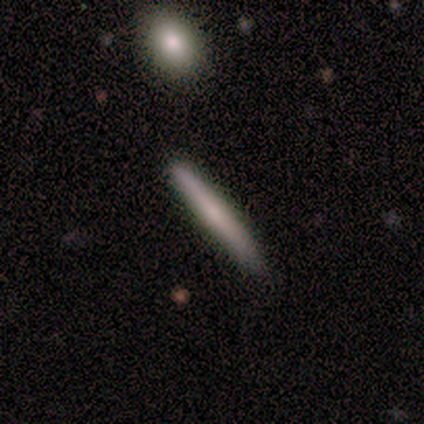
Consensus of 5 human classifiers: smooth-or-featured: smooth: 80% | featured or disk: 20% | star or artifact: 0%
  how-rounded: cigar-shaped: 100% | round: 0% | in between: 0%
  merging: none: 80% | minor disturbance: 20% | major disturbance: 0% | merger: 0%